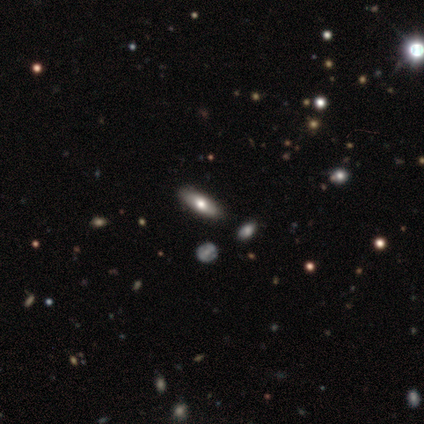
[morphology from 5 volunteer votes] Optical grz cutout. It shows a featured or disk galaxy (60%) with no bar (100%), no spiral arms (100%) and a moderate central bulge (100%). Merging: none (100%).